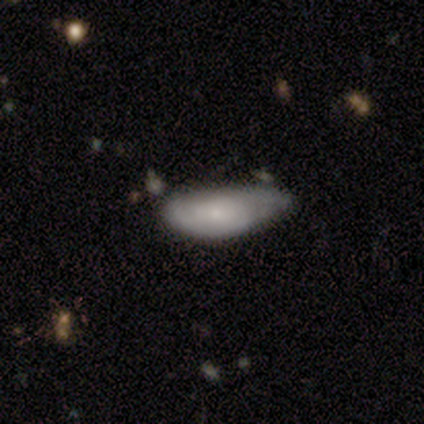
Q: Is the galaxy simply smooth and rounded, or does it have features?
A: smooth — 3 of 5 (60%).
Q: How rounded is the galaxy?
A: in between — 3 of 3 (100%).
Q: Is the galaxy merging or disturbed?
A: none — 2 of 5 (40%, tied with minor disturbance).